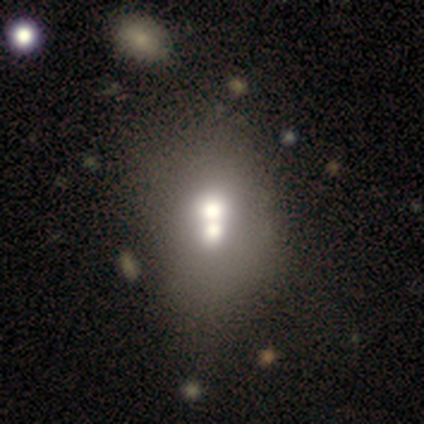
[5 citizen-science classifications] Smooth or featured? featured or disk (100%)
Edge-on disk? no (80%)
Bar? no (100%)
Spiral arms? no (100%)
Bulge size? moderate (50%)
Merging? merger (60%)